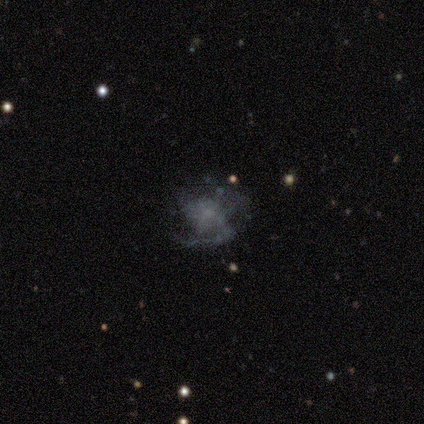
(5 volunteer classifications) This is likely a featured or disk galaxy (60%). It is clearly not viewed edge-on (100%). Bar: clearly no (100%). Spiral arm pattern: clearly yes (100%). Spiral arm count: clearly can't tell (100%). Spiral winding: marginally tight (33%, tied with medium and loose). Central bulge: likely none (67%). Merging: possibly none (50%).